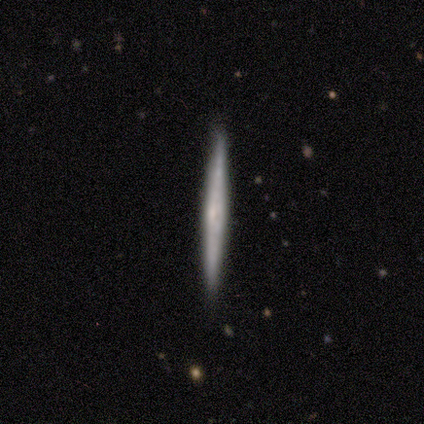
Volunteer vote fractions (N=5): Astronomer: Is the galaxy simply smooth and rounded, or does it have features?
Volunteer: featured or disk — 60% (runner-up: smooth, 40%).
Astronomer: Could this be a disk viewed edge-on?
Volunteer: yes — 100%.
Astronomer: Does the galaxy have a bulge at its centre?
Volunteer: rounded — 67%.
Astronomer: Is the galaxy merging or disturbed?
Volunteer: none — 80%.